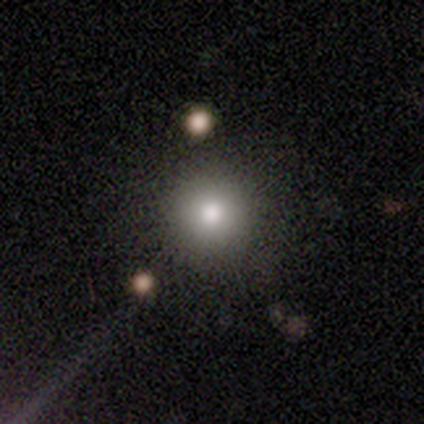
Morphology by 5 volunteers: smooth-or-featured: smooth: 80% | featured or disk: 20% | star or artifact: 0%
  how-rounded: round: 100% | in between: 0% | cigar-shaped: 0%
  merging: none: 80% | merger: 20% | minor disturbance: 0% | major disturbance: 0%